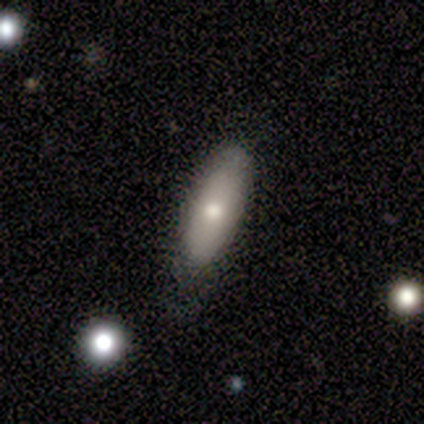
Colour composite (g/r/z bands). It shows a smooth galaxy with no disk features (80%) that is in between round and cigar-shaped (75%). Merging: none (80%).